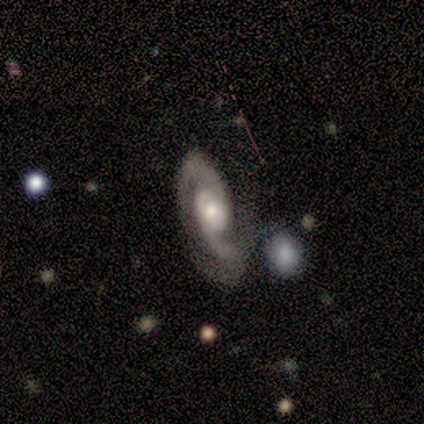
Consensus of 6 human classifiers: This appears to be a featured or disk galaxy (83%) with no bar (60%), 2 (80%) medium (40%, tied with loose) spiral arms (100%) and a moderate central bulge (60%). Merging: none (50%, tied with minor disturbance).